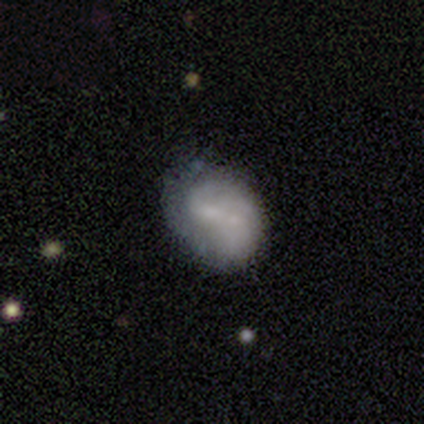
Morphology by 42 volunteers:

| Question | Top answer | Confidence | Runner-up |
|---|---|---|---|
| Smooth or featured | smooth | 52% | featured or disk (38%) |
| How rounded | in between | 68% | round (27%) |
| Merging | none | 47% | minor disturbance (26%) |